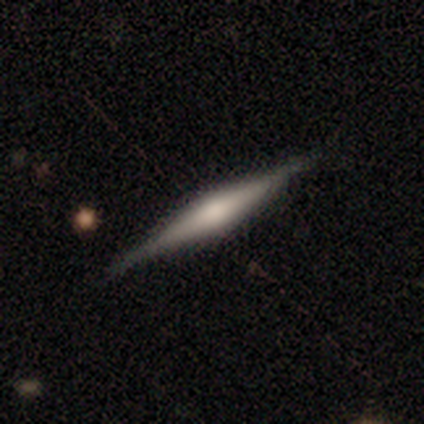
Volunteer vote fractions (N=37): smooth_or_featured: featured or disk (p=0.68) [alt: smooth p=0.24]
disk_edge_on: yes (p=1.00)
edge_on_bulge: rounded (p=0.68) [alt: boxy p=0.24]
merging: none (p=0.91) [alt: minor disturbance p=0.06]